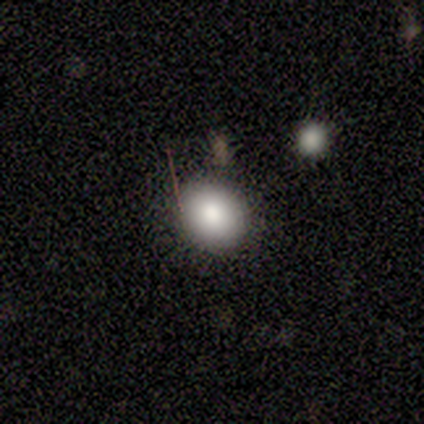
smooth-or-featured: smooth: 60% | featured or disk: 20% | star or artifact: 20%
  how-rounded: round: 100% | in between: 0% | cigar-shaped: 0%
  merging: none: 100% | minor disturbance: 0% | major disturbance: 0% | merger: 0%